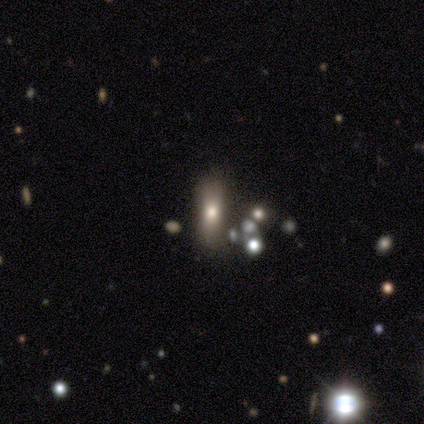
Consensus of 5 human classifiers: Smooth or featured?
  - smooth: 40% * (tied)
  - featured or disk: 40% * (tied)
  - star or artifact: 20%
How rounded?
  - in between: 50% * (tied)
  - cigar-shaped: 50% * (tied)
  - round: 0%
Merging?
  - none: 75% *
  - minor disturbance: 25%
  - major disturbance: 0%
  - merger: 0%